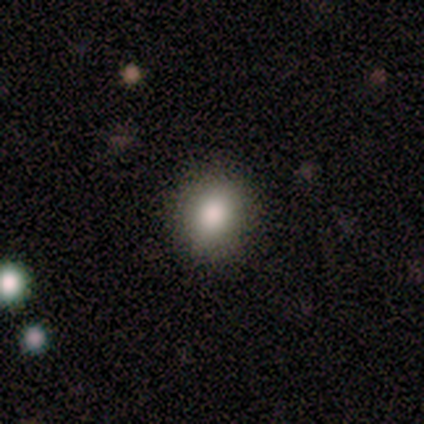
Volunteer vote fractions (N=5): Smooth or featured? 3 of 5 (60%) said star or artifact.